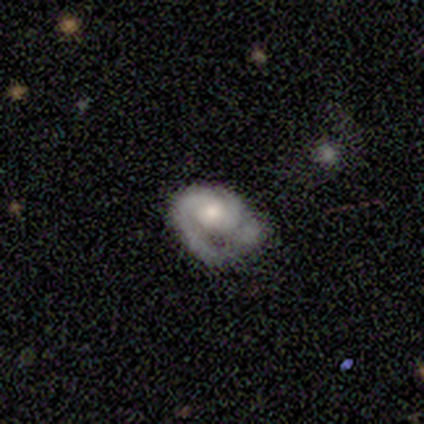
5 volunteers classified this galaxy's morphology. Smooth or featured? 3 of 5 (60%) said featured or disk. Edge-on disk? 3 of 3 (100%) said no. Bar? 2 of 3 (67%) said no. Spiral arms? 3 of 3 (100%) said yes. Spiral winding? 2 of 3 (67%) said tight. Spiral arm count? 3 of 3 (100%) said 2. Bulge size? 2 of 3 (67%) said moderate. Merging? 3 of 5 (60%) said major disturbance.